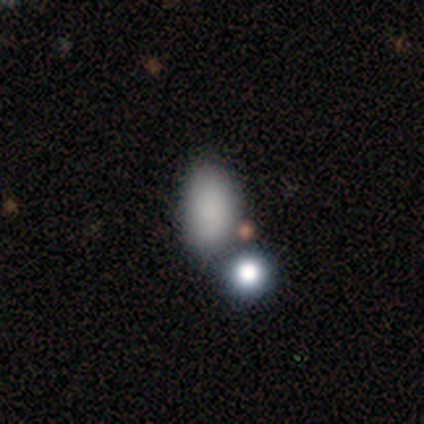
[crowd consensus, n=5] Q: Smooth or featured?
A: smooth (100%)
Q: How rounded?
A: in between (100%)
Q: Merging?
A: none (60%); runner-up: minor disturbance (20%)